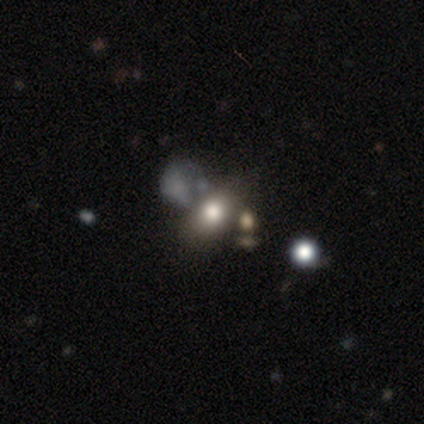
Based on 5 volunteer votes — Overall: smooth (40%, tied with star or artifact). How rounded: in between (100%). Merging: none (67%; minor disturbance 33%).